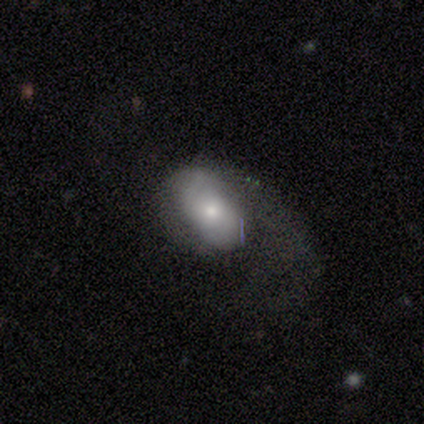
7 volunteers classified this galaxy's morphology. This is likely a featured or disk galaxy (71%). It is clearly not viewed edge-on (100%). Bar: clearly no (80%). Spiral arm pattern: clearly yes (100%). Spiral arm count: clearly 2 (80%). Spiral winding: clearly loose (80%). Central bulge: marginally small (40%). Merging: likely major disturbance (71%).